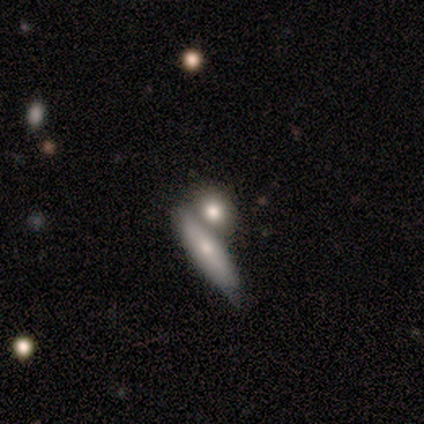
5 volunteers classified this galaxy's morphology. A smooth galaxy with no disk features (80%) that is round (50%, tied with cigar-shaped). Merging: merger (80%).